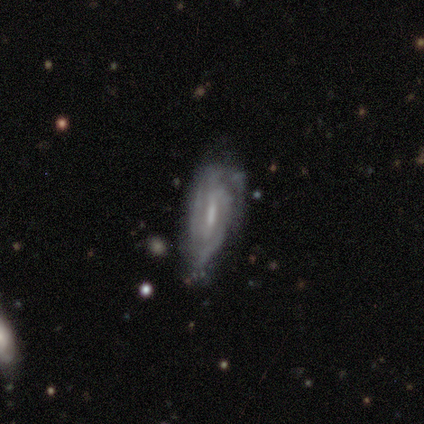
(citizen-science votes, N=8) A featured or disk galaxy (88%) with a strong bar (43%, tied with weak), 2 (50%, tied with can't tell) tight (83%) spiral arms (86%) and a moderate central bulge (57%). Merging: minor disturbance (50%).